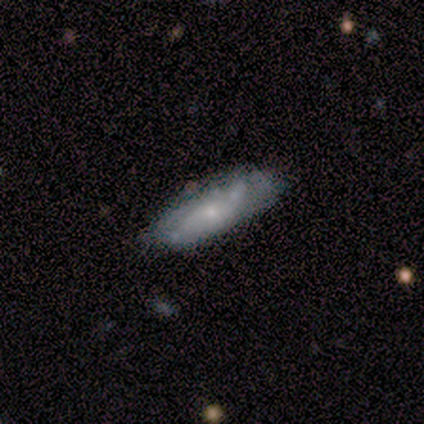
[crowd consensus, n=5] A smooth galaxy with no disk features (40%, tied with featured or disk) that is in between round and cigar-shaped (50%, tied with cigar-shaped). Merging: none (75%).